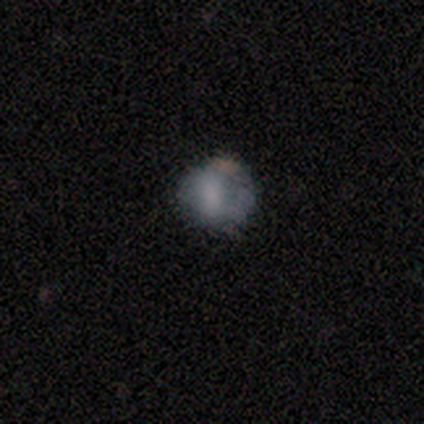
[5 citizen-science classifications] A smooth galaxy with no disk features (80%) that is round (100%). Merging: none (60%).